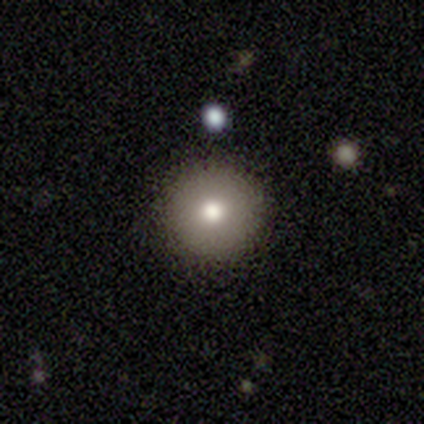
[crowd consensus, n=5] Smooth or featured?
  - smooth: 100% *
  - featured or disk: 0%
  - star or artifact: 0%
How rounded?
  - round: 100% *
  - in between: 0%
  - cigar-shaped: 0%
Merging?
  - none: 80% *
  - minor disturbance: 20%
  - major disturbance: 0%
  - merger: 0%